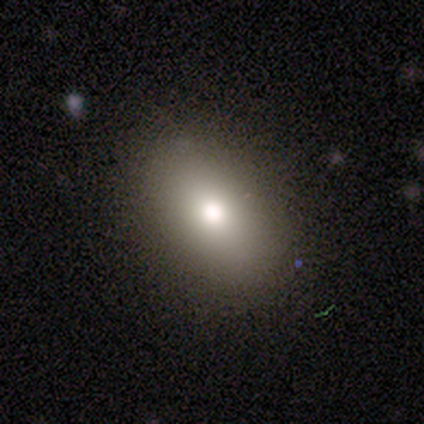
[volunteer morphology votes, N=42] Smooth or featured? 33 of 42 (79%) said smooth. How rounded? 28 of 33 (85%) said in between. Merging? 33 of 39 (85%) said none.